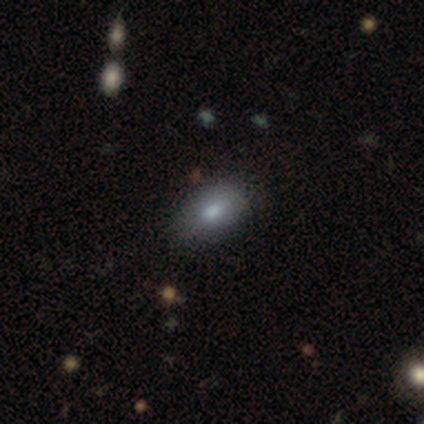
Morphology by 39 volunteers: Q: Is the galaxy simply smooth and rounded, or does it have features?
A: smooth — 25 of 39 (64%).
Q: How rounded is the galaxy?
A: in between — 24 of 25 (96%).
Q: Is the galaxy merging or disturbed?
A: none — 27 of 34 (79%).